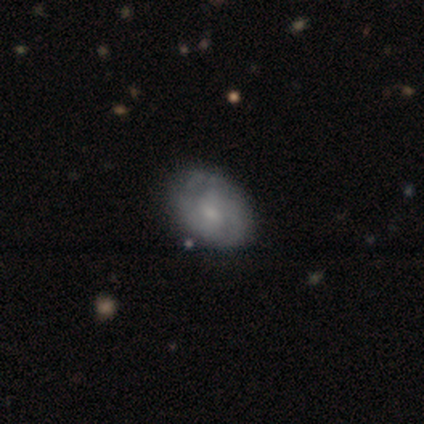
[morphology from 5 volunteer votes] featured or disk 100%, smooth 0%, star or artifact 0%. Down the decision tree: edge-on disk — no (100%); bar — no (60%); spiral arms — yes (80%); spiral arm count — can't tell (75%); spiral winding — tight (50%, tied with medium); bulge size — small (80%); merging — none (80%).